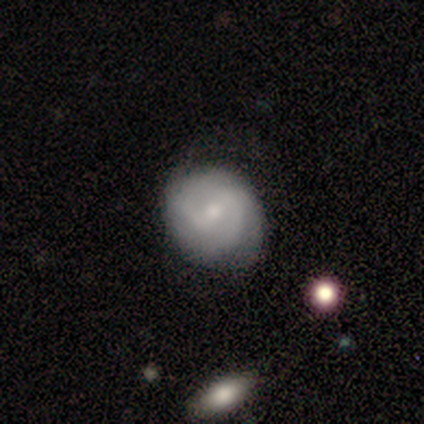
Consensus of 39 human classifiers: A featured or disk galaxy (59%) with a weak bar (74%), 2 (65%) tight (48%) spiral arms (100%) and a small central bulge (57%).

Vote fractions:
- Smooth or featured? featured or disk: 59% / smooth: 41% / star or artifact: 0%
- Edge-on disk? no: 100% / yes: 0%
- Bar? weak: 74% / no: 22% / strong: 4%
- Spiral arms? yes: 100% / no: 0%
- Spiral winding? tight: 48% / medium: 43% / loose: 9%
- Spiral arm count? 2: 65% / can't tell: 17% / 3: 13% / 1: 4% / 4: 0% / more than 4: 0%
- Bulge size? small: 57% / moderate: 43% / dominant: 0% / large: 0% / none: 0%
- Merging? none: 72% / minor disturbance: 26% / major disturbance: 3% / merger: 0%